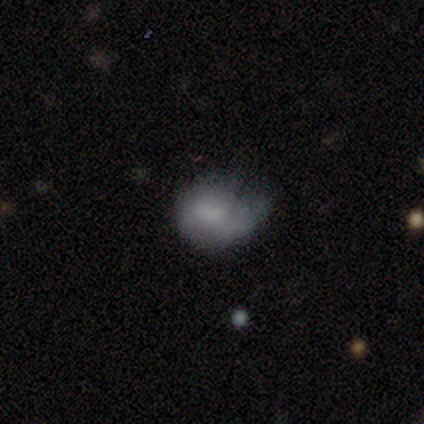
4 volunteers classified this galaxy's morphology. type=smooth (50%, tied with featured or disk); roundness=round (50%, tied with in between); merging=none (50%, tied with minor disturbance).